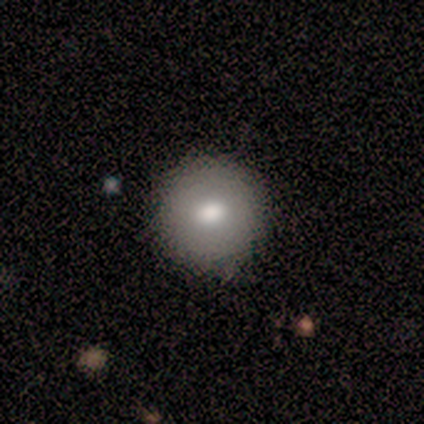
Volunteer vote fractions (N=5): Q: Smooth or featured?
A: smooth (60%); runner-up: featured or disk (20%)
Q: How rounded?
A: round (100%)
Q: Merging?
A: none (75%); runner-up: minor disturbance (25%)